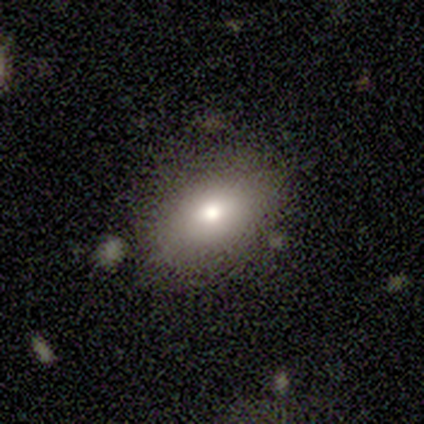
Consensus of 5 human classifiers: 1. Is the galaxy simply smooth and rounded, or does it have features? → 80% smooth, 20% featured or disk, 0% star or artifact.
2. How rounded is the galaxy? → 75% in between, 25% round, 0% cigar-shaped.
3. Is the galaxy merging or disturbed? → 100% none, 0% minor disturbance, 0% major disturbance, 0% merger.